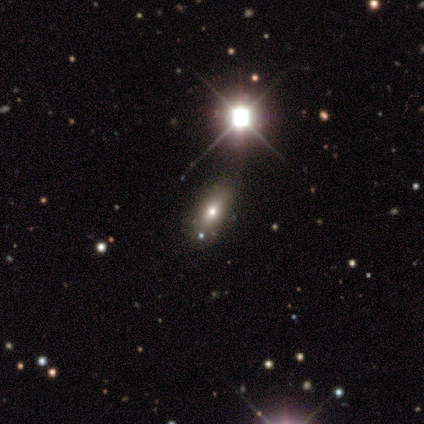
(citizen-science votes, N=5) Volunteers were most divided on "smooth or featured": smooth: 60%, featured or disk: 40%, star or artifact: 0%. More confident: merging — none (100%); how rounded — in between (67%).